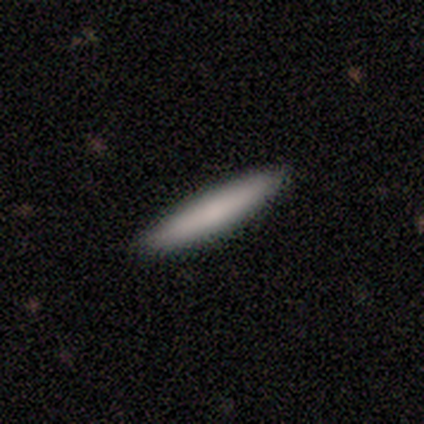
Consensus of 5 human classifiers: Morphology: type=smooth (80%); roundness=cigar-shaped (100%); merging=none (80%).